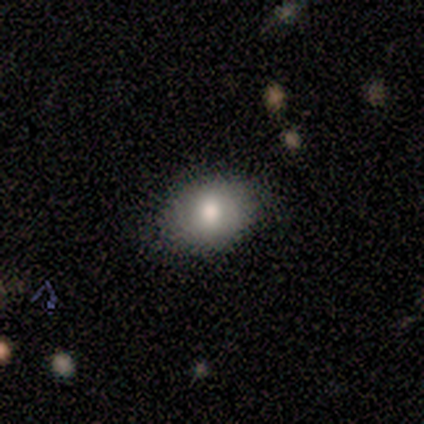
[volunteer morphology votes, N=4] type=smooth (100%); roundness=round (50%, tied with in between); merging=none (100%).